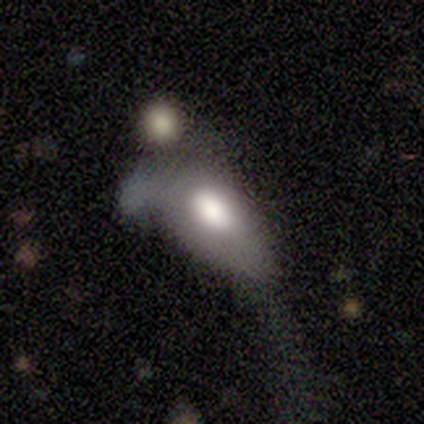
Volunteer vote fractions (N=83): Smooth or featured? smooth (72%)
How rounded? in between (92%)
Merging? major disturbance (45%)